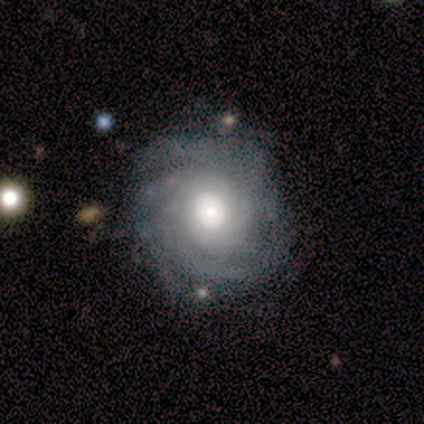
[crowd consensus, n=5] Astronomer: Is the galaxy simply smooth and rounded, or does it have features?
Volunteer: featured or disk — 100%.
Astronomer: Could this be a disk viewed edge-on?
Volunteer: no — 100%.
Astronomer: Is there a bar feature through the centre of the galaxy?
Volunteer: no — 100%.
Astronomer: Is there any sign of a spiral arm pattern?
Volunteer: yes — 100%.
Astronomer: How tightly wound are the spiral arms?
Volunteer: tight — 60%.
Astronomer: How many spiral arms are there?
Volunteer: can't tell — 60%.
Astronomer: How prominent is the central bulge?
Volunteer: large — 60%.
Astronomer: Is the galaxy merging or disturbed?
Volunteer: none — 100%.